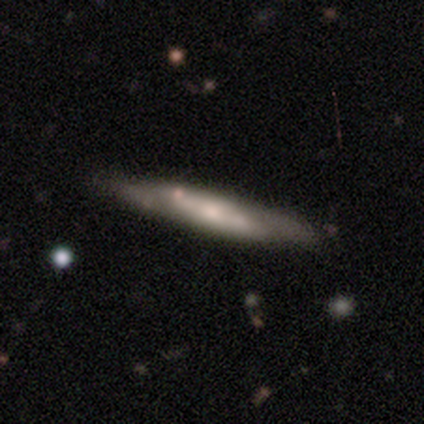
This is likely a featured or disk galaxy (72%). It is likely viewed edge-on (68%). Edge-on bulge: likely rounded (68%). Merging: likely none (69%).